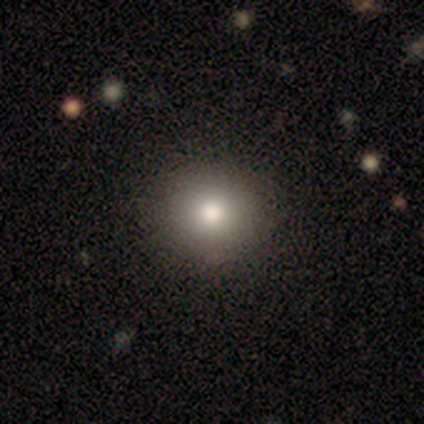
smooth-or-featured: smooth: 75% | star or artifact: 25% | featured or disk: 0%
  how-rounded: round: 67% | in between: 33% | cigar-shaped: 0%
  merging: none: 67% | minor disturbance: 33% | major disturbance: 0% | merger: 0%